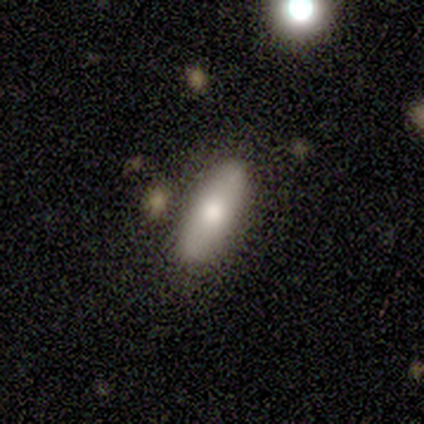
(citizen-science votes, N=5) smooth-or-featured: smooth: 100% | featured or disk: 0% | star or artifact: 0%
  how-rounded: in between: 60% | round: 20% | cigar-shaped: 20%
  merging: none: 100% | minor disturbance: 0% | major disturbance: 0% | merger: 0%